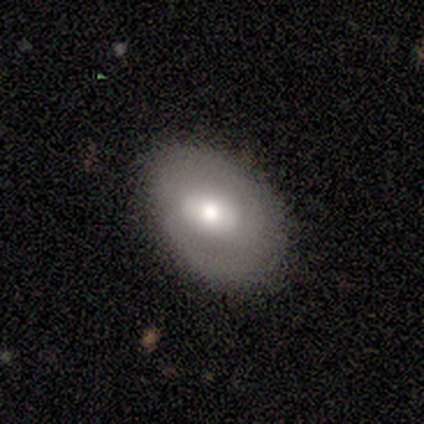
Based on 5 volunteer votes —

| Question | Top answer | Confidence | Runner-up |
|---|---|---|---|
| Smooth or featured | smooth | 100% | — |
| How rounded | in between | 100% | — |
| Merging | none | 60% | minor disturbance (40%) |